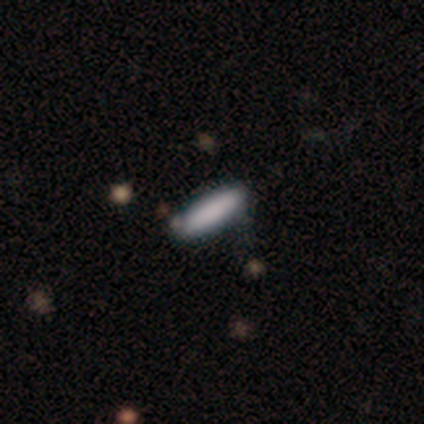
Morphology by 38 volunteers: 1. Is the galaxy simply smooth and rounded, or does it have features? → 84% smooth, 16% featured or disk, 0% star or artifact.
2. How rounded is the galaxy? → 81% cigar-shaped, 19% in between, 0% round.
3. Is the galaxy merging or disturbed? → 47% none, 16% minor disturbance, 8% merger, 3% major disturbance.